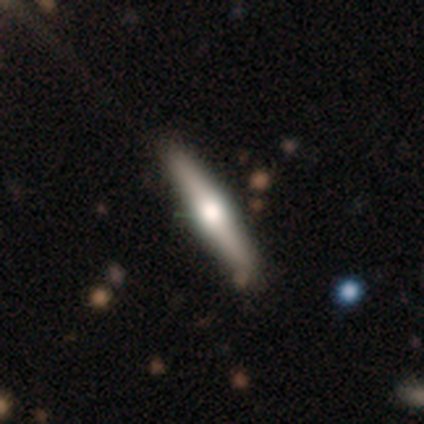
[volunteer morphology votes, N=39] A featured or disk galaxy (69%) viewed edge-on (96%) with a rounded central bulge (92%).

Vote fractions:
- Smooth or featured? featured or disk: 69% / smooth: 26% / star or artifact: 5%
- Edge-on disk? yes: 96% / no: 4%
- Edge-on bulge? rounded: 92% / boxy: 4% / none: 4%
- Merging? none: 70% / minor disturbance: 11% / major disturbance: 0% / merger: 0%